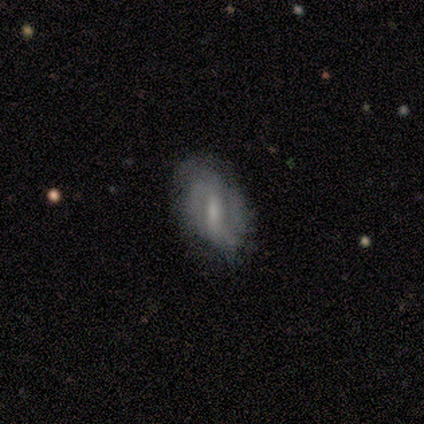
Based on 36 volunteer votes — smooth_or_featured: featured or disk (p=0.69) [alt: smooth p=0.22]
disk_edge_on: no (p=0.88) [alt: yes p=0.12]
bar: weak (p=0.45) [alt: strong p=0.41]
has_spiral_arms: yes (p=0.86) [alt: no p=0.14]
spiral_winding: loose (p=0.58) [alt: tight p=0.26]
spiral_arm_count: 2 (p=0.68) [alt: can't tell p=0.16]
bulge_size: moderate (p=0.50) [alt: none p=0.27]
merging: none (p=0.61) [alt: minor disturbance p=0.27]